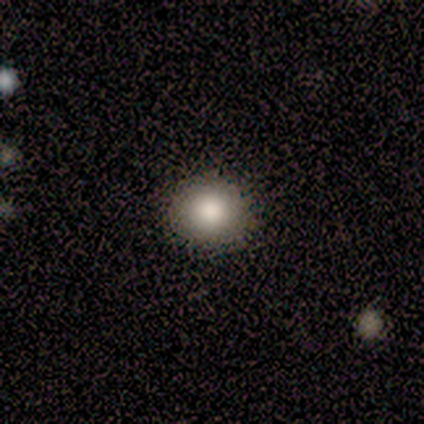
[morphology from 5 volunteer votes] Smooth or featured? smooth (60%)
How rounded? round (100%)
Merging? none (100%)